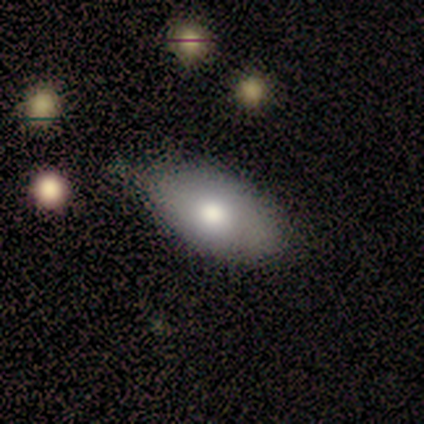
A smooth galaxy with no disk features (71%) that is in between round and cigar-shaped (100%).

Vote fractions:
- Smooth or featured? smooth: 71% / featured or disk: 29% / star or artifact: 0%
- How rounded? in between: 100% / round: 0% / cigar-shaped: 0%
- Merging? minor disturbance: 57% / none: 43% / major disturbance: 0% / merger: 0%